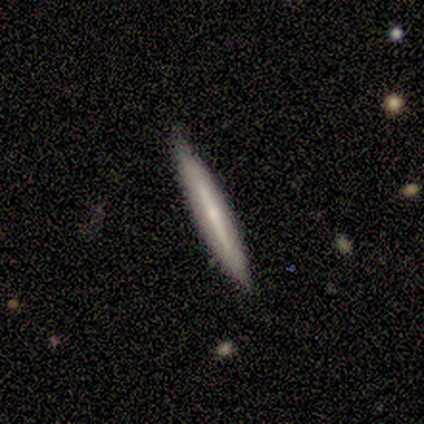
Smooth or featured: smooth — 80% (featured or disk — 20%)
How rounded: cigar-shaped — 75% (round — 25%)
Merging: none — 60% (minor disturbance — 40%)